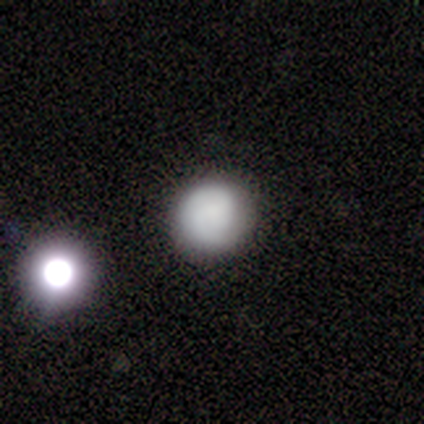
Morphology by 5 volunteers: smooth-or-featured: smooth: 80% | featured or disk: 20% | star or artifact: 0%
  how-rounded: round: 75% | in between: 25% | cigar-shaped: 0%
  merging: none: 60% | minor disturbance: 40% | major disturbance: 0% | merger: 0%